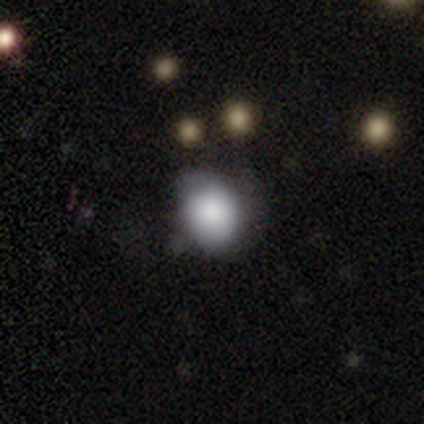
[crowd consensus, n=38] Morphology: type=smooth (87%); roundness=round (64%); merging=none (47%).